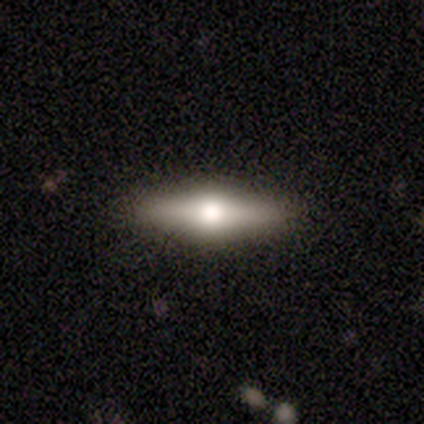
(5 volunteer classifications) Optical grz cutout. It shows a featured or disk galaxy (80%) viewed edge-on (100%) with a rounded central bulge (100%). Merging: none (100%).